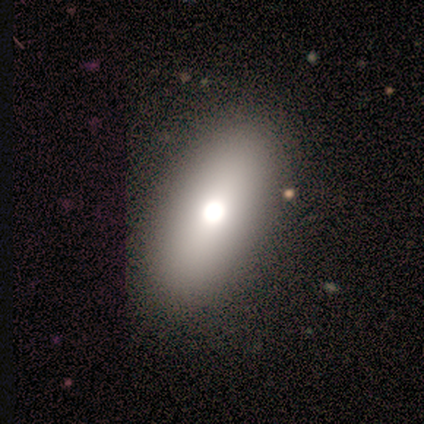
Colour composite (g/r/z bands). It shows a smooth galaxy with no disk features (62%) that is in between round and cigar-shaped (94%). Merging: none (87%).